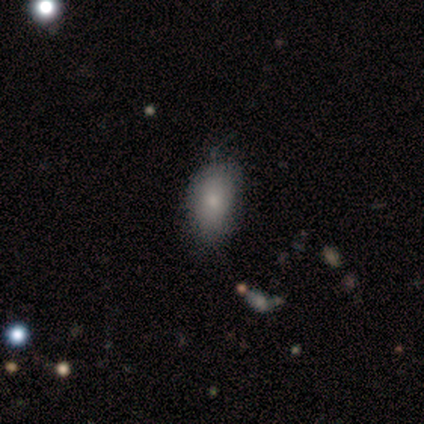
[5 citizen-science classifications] smooth 60%, featured or disk 40%, star or artifact 0%. Down the decision tree: how rounded — in between (100%); merging — none (60%).